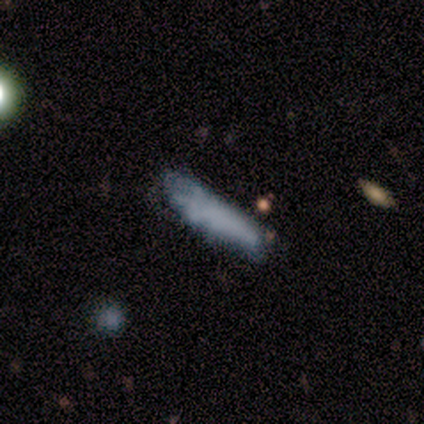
Overall: smooth (80%). How rounded: cigar-shaped (75%). Merging: none (40%, tied with major disturbance).